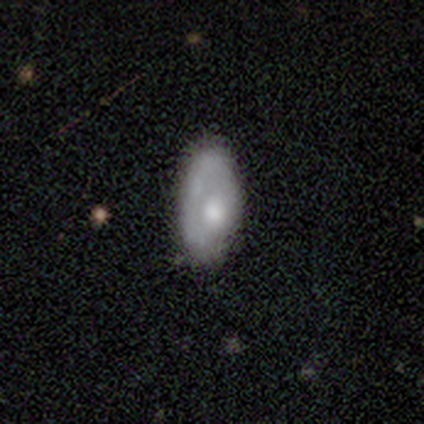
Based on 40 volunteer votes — A smooth galaxy with no disk features (55%) that is in between round and cigar-shaped (86%). Merging: none (54%).